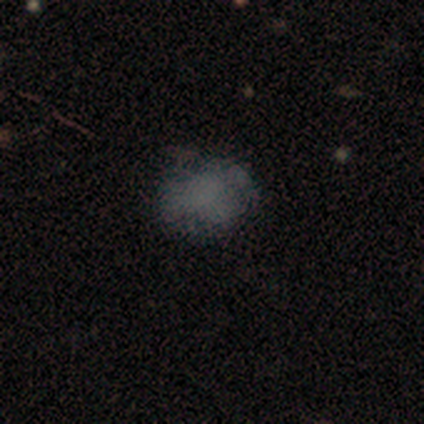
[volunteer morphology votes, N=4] A star or artifact, not a galaxy (50%).

Vote fractions:
- Smooth or featured? star or artifact: 50% / smooth: 25% / featured or disk: 25%